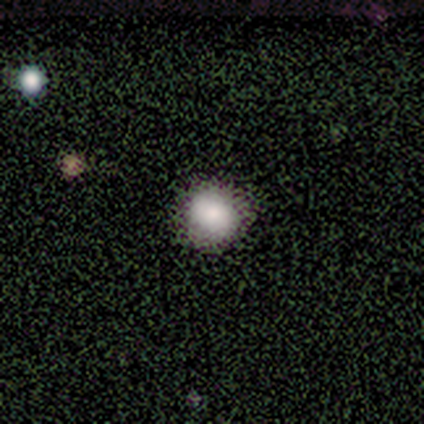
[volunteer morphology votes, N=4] Overall: smooth (75%). How rounded: round (100%). Merging: none (100%).